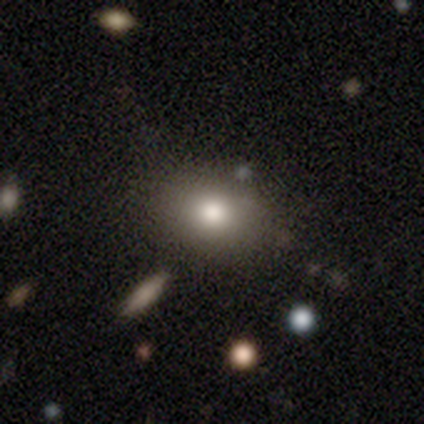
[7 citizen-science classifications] Volunteers were most divided on "how rounded": in between: 83%, round: 17%, cigar-shaped: 0%. More confident: smooth or featured — smooth (86%); merging — none (83%).